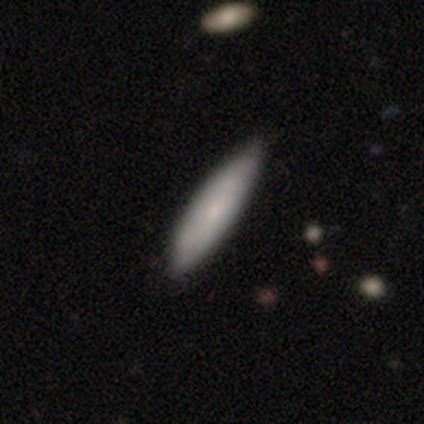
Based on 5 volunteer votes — Overall: smooth (40%, tied with featured or disk). How rounded: cigar-shaped (100%). Merging: none (75%).